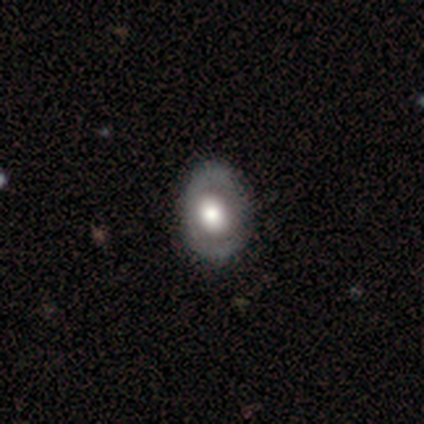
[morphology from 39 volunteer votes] type=featured or disk (51%); edge-on=no (100%); bar=no (90%); spiral arms=no (75%); bulge=large (60%); merging=none (51%).